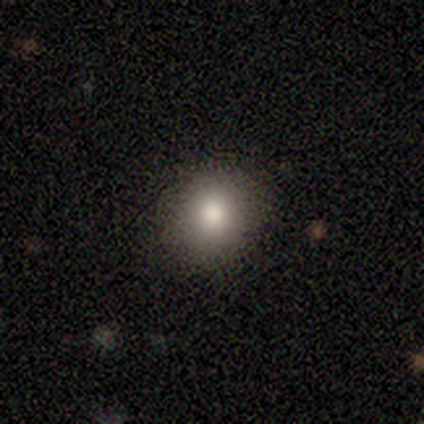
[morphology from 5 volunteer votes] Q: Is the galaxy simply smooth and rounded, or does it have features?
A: smooth — 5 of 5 (100%).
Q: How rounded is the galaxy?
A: round — 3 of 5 (60%).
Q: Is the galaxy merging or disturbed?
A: none — 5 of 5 (100%).